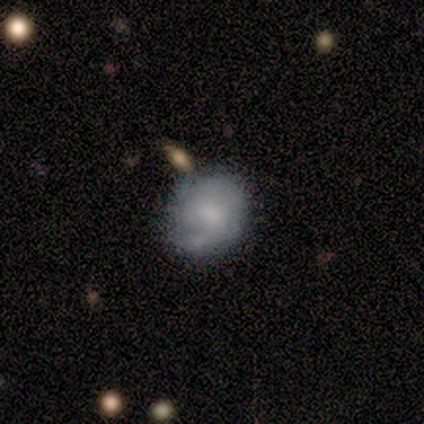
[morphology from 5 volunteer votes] smooth_or_featured: smooth (p=0.80) [alt: featured or disk p=0.20]
how_rounded: round (p=0.75) [alt: in between p=0.25]
merging: none (p=0.80) [alt: minor disturbance p=0.20]